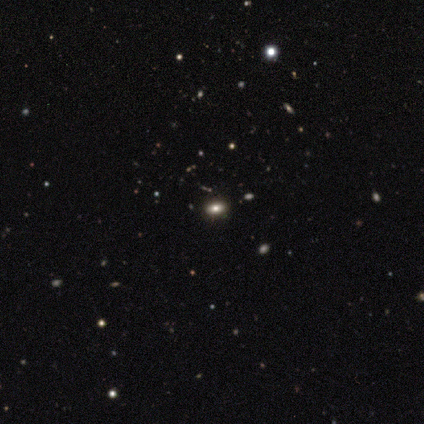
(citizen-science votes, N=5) This is marginally a featured or disk galaxy (40%, tied with star or artifact). It is clearly not viewed edge-on (100%). Bar: clearly no (100%). Spiral arm pattern: clearly no (100%). Central bulge: possibly moderate (50%, tied with small). Merging: clearly none (100%).